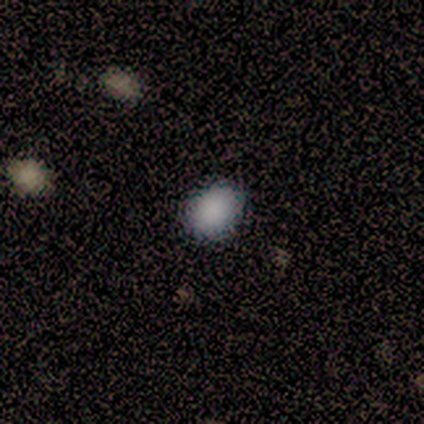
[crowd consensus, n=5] smooth-or-featured: smooth: 80% | star or artifact: 20% | featured or disk: 0%
  how-rounded: round: 75% | in between: 25% | cigar-shaped: 0%
  merging: none: 75% | minor disturbance: 25% | major disturbance: 0% | merger: 0%